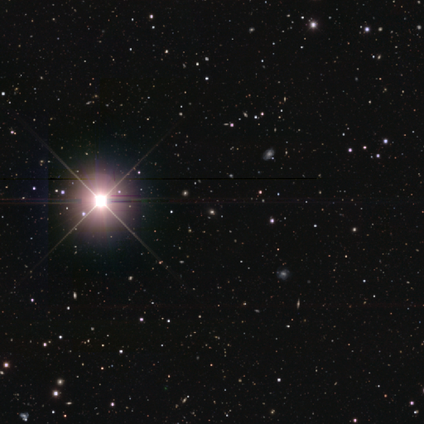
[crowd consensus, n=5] This appears to be a star or artifact, not a galaxy (100%).